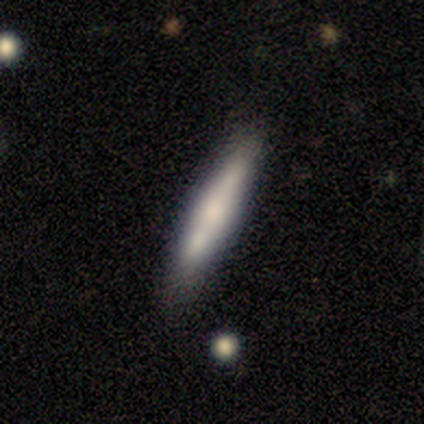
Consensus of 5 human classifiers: A smooth galaxy with no disk features (40%, tied with featured or disk) that is cigar-shaped (100%). Merging: none (50%, tied with minor disturbance).